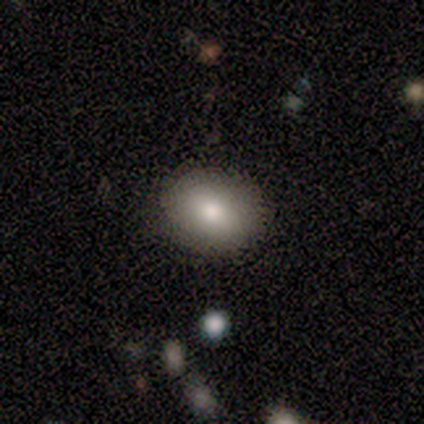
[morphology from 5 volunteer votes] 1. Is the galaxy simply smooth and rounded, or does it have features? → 100% smooth, 0% featured or disk, 0% star or artifact.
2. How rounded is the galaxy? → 60% in between, 40% round, 0% cigar-shaped.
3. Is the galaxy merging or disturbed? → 100% none, 0% minor disturbance, 0% major disturbance, 0% merger.